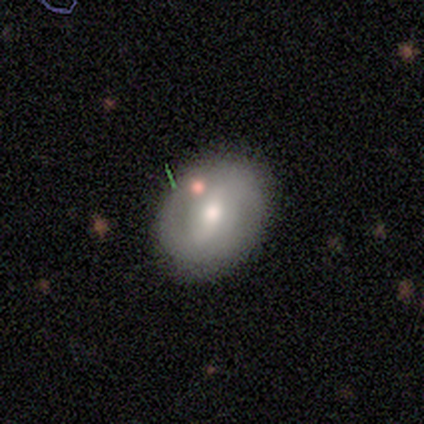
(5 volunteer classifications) Smooth or featured? 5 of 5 (100%) said featured or disk. Edge-on disk? 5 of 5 (100%) said no. Bar? 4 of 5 (80%) said weak. Spiral arms? 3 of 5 (60%) said yes. Spiral winding? 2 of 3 (67%) said medium. Spiral arm count? 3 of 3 (100%) said 2. Bulge size? 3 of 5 (60%) said small. Merging? 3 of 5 (60%) said none.